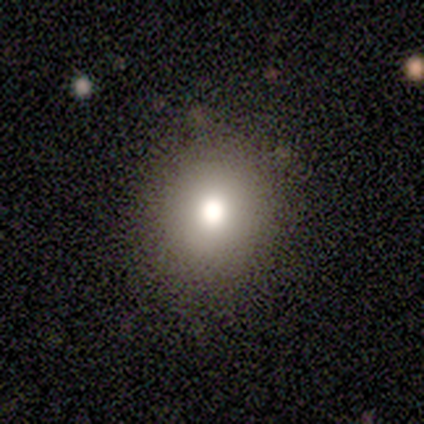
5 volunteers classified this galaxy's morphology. This appears to be a smooth galaxy with no disk features (60%) that is round (67%). Merging: none (75%).